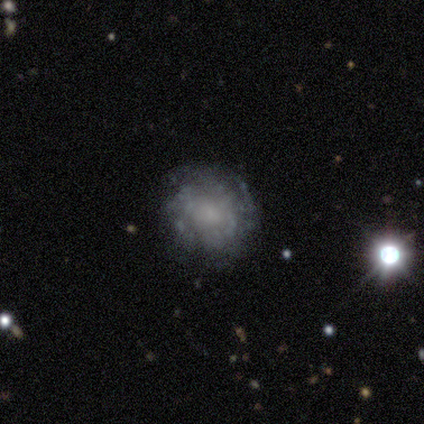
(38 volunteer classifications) A featured or disk galaxy (82%) with no bar (84%), no spiral arms (65%) and a small central bulge (39%, tied with none). Merging: none (74%).